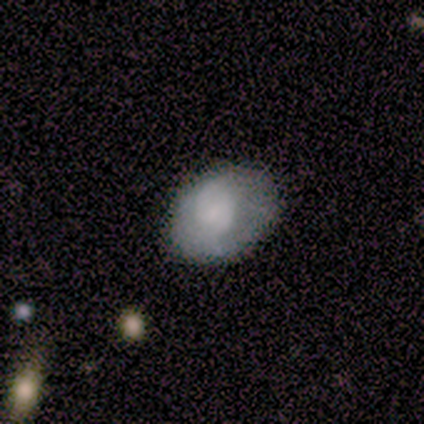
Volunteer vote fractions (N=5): smooth_or_featured: smooth (p=0.80) [alt: featured or disk p=0.20]
how_rounded: in between (p=0.75) [alt: round p=0.25]
merging: none (p=0.60) [alt: minor disturbance p=0.40]